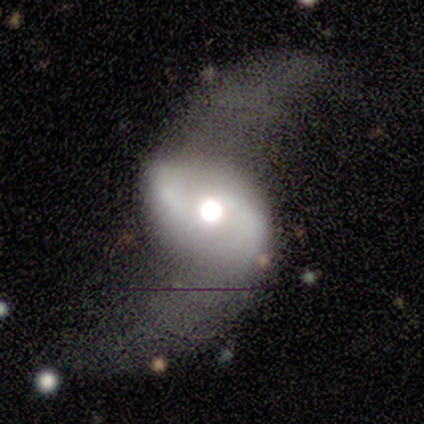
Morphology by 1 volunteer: Smooth or featured?
  - featured or disk: 100% *
  - smooth: 0%
  - star or artifact: 0%
Edge-on disk?
  - no: 100% *
  - yes: 0%
Bar?
  - no: 100% *
  - strong: 0%
  - weak: 0%
Spiral arms?
  - yes: 100% *
  - no: 0%
Spiral winding?
  - loose: 100% *
  - tight: 0%
  - medium: 0%
Spiral arm count?
  - 2: 100% *
  - 1: 0%
  - 3: 0%
  - 4: 0%
  - more than 4: 0%
  - can't tell: 0%
Bulge size?
  - moderate: 100% *
  - dominant: 0%
  - large: 0%
  - small: 0%
  - none: 0%
Merging?
  - none: 100% *
  - minor disturbance: 0%
  - major disturbance: 0%
  - merger: 0%